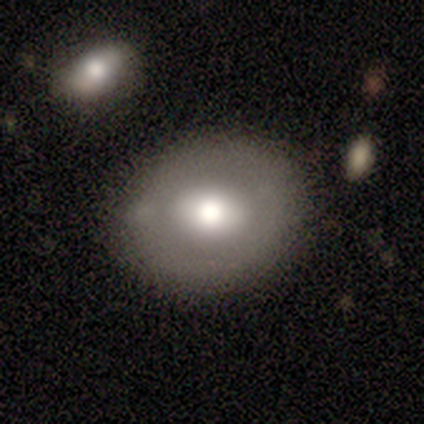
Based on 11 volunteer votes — smooth-or-featured: smooth: 73% | featured or disk: 27% | star or artifact: 0%
  how-rounded: round: 62% | in between: 38% | cigar-shaped: 0%
  merging: none: 45% | minor disturbance: 18% | major disturbance: 18% | merger: 18%